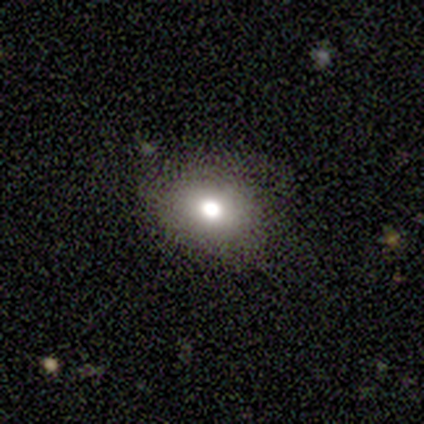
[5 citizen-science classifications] Q: Smooth or featured?
A: smooth (80%); runner-up: featured or disk (20%)
Q: How rounded?
A: round (50%); tied with: in between (50%)
Q: Merging?
A: none (60%); runner-up: minor disturbance (20%)